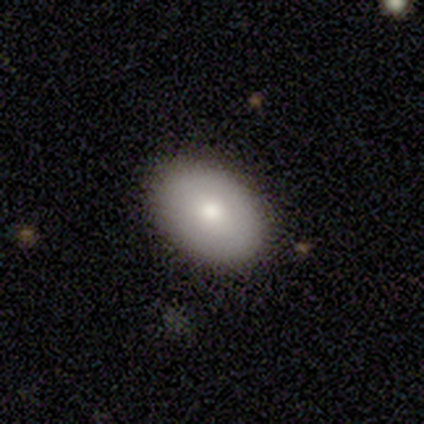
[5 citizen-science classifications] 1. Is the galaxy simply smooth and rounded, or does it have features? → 100% smooth, 0% featured or disk, 0% star or artifact.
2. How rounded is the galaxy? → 80% in between, 20% round, 0% cigar-shaped.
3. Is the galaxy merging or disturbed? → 100% none, 0% minor disturbance, 0% major disturbance, 0% merger.